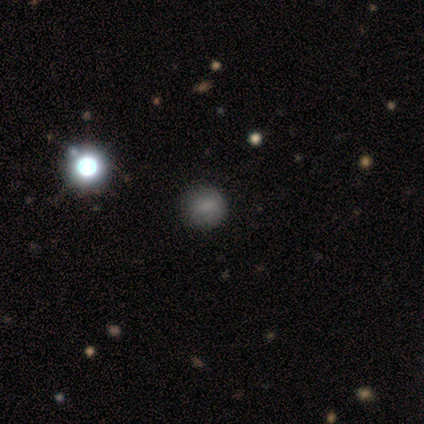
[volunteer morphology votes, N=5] smooth_or_featured: smooth (p=0.80) [alt: star or artifact p=0.20]
how_rounded: round (p=1.00)
merging: none (p=1.00)